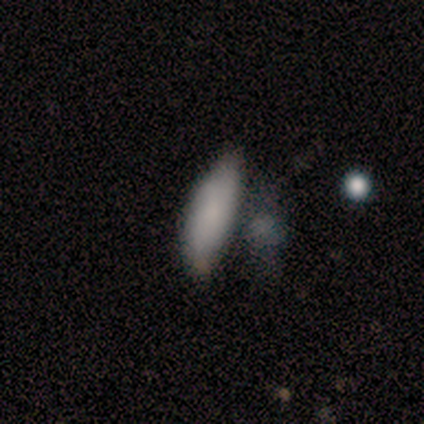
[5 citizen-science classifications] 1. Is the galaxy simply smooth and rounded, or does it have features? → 100% smooth, 0% featured or disk, 0% star or artifact.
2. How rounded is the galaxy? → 60% in between, 40% cigar-shaped, 0% round.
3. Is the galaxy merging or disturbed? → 60% none, 20% minor disturbance, 20% major disturbance, 0% merger.